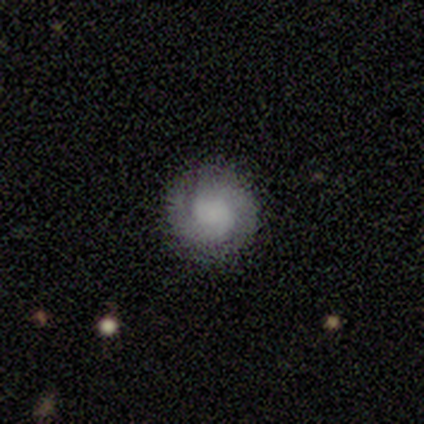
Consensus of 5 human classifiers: Volunteers were most divided on "bar" (2-way tie): weak: 50%, no: 50%, strong: 0%; "spiral winding" (2-way tie): tight: 50%, medium: 50%, loose: 0%; "bulge size" (4-way tie): large: 25%, moderate: 25%, small: 25%, none: 25%, dominant: 0%. More confident: edge-on disk — no (100%); spiral arms — yes (100%); merging — none (100%); smooth or featured — featured or disk (80%); spiral arm count — 2 (75%).